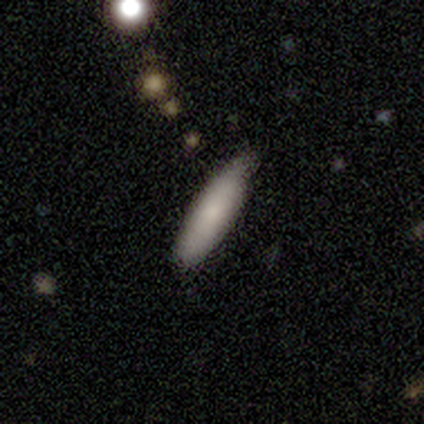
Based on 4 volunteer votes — Volunteers were most divided on "merging": none: 75%, minor disturbance: 25%, major disturbance: 0%, merger: 0%. More confident: smooth or featured — smooth (100%); how rounded — cigar-shaped (100%).